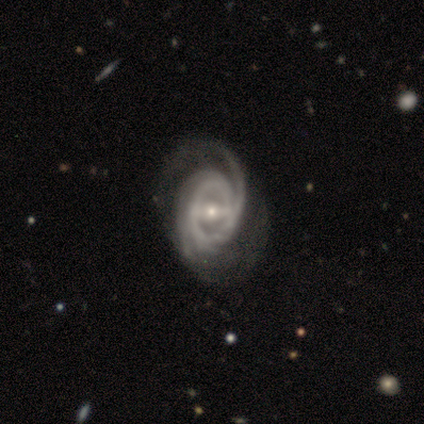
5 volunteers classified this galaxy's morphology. A featured or disk galaxy (100%) with a weak bar (40%, tied with no), 2 (40%, tied with 3) tight (100%) spiral arms (100%) and a small central bulge (80%). Merging: none (60%).